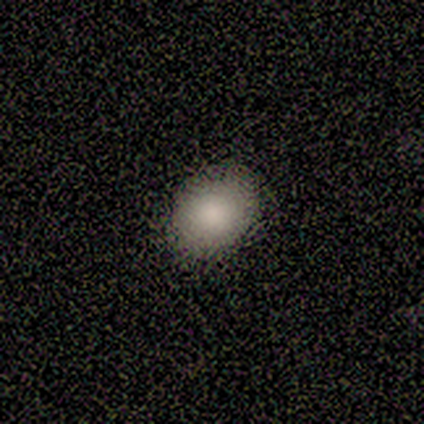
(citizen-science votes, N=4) Q: Smooth or featured?
A: smooth (100%)
Q: How rounded?
A: round (50%); tied with: in between (50%)
Q: Merging?
A: none (100%)